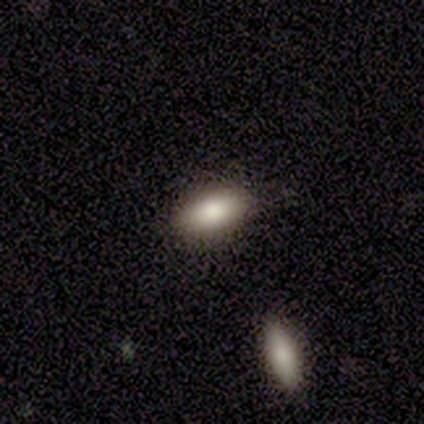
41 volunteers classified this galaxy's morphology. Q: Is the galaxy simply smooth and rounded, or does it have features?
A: smooth — 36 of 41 (88%).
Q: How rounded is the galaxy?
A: in between — 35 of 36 (97%).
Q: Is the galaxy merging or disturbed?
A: none — 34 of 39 (87%).